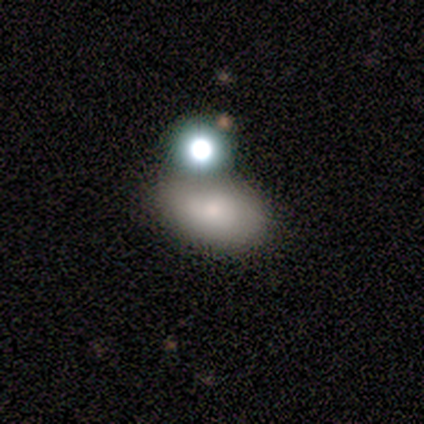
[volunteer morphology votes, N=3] smooth-or-featured: smooth: 100% | featured or disk: 0% | star or artifact: 0%
  how-rounded: in between: 100% | round: 0% | cigar-shaped: 0%
  merging: none: 33% (tied) | minor disturbance: 33% (tied) | merger: 33% (tied) | major disturbance: 0%